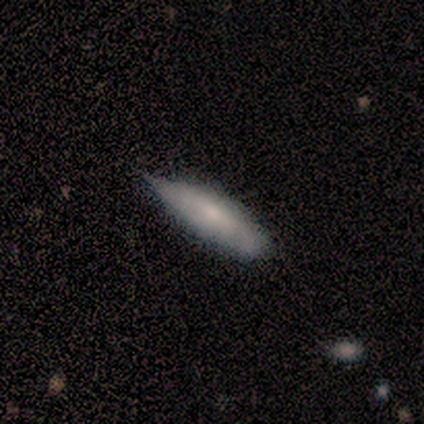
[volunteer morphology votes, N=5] smooth-or-featured: featured or disk: 60% | smooth: 40% | star or artifact: 0%
  disk-edge-on: yes: 67% | no: 33%
    edge-on-bulge: boxy: 50% (tied) | rounded: 50% (tied) | none: 0%
  merging: minor disturbance: 80% | none: 20% | major disturbance: 0% | merger: 0%